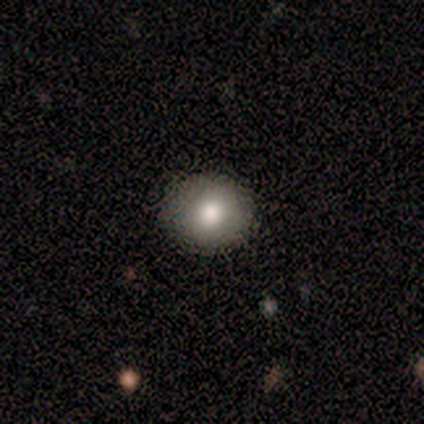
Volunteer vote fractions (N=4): smooth_or_featured: smooth (p=0.75) [alt: featured or disk p=0.25]
how_rounded: round (p=1.00)
merging: none (p=0.75) [alt: minor disturbance p=0.25]